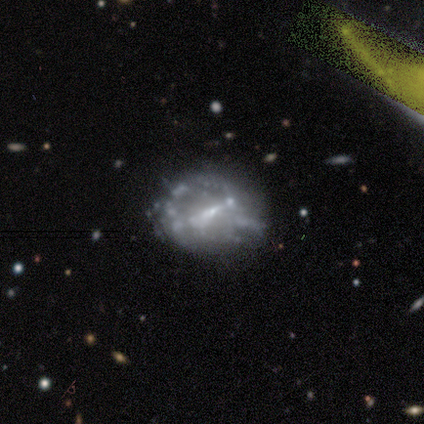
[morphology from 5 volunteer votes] Smooth or featured? 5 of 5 (100%) said featured or disk. Edge-on disk? 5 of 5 (100%) said no. Bar? 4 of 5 (80%) said weak. Spiral arms? 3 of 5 (60%) said no. Bulge size? 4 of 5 (80%) said small. Merging? 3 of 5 (60%) said minor disturbance.